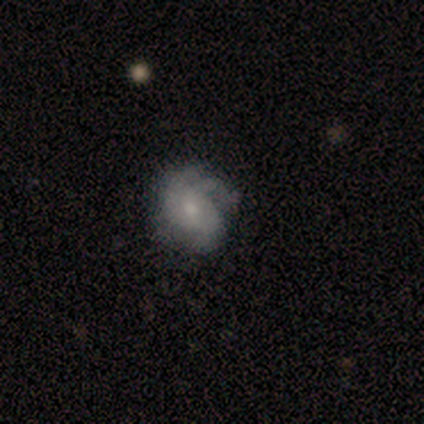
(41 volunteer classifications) Smooth or featured? 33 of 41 (80%) said featured or disk. Edge-on disk? 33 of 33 (100%) said no. Bar? 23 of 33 (70%) said no. Spiral arms? 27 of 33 (82%) said yes. Spiral winding? 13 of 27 (48%) said medium. Spiral arm count? 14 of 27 (52%) said 3. Bulge size? 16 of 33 (48%) said moderate. Merging? 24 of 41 (59%) said none.